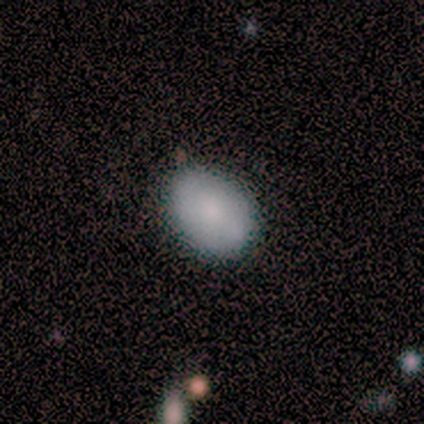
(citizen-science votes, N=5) smooth-or-featured: smooth: 80% | featured or disk: 20% | star or artifact: 0%
  how-rounded: in between: 100% | round: 0% | cigar-shaped: 0%
  merging: none: 100% | minor disturbance: 0% | major disturbance: 0% | merger: 0%